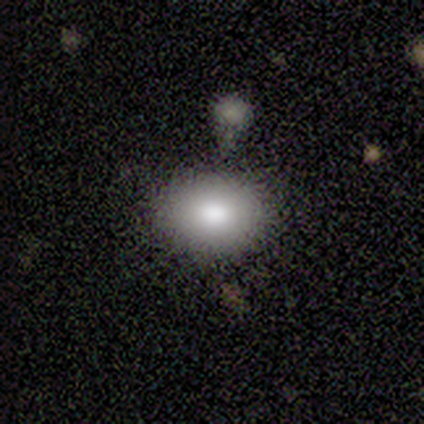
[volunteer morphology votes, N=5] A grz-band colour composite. It shows a smooth galaxy with no disk features (100%) that is in between round and cigar-shaped (100%). Merging: none (80%).